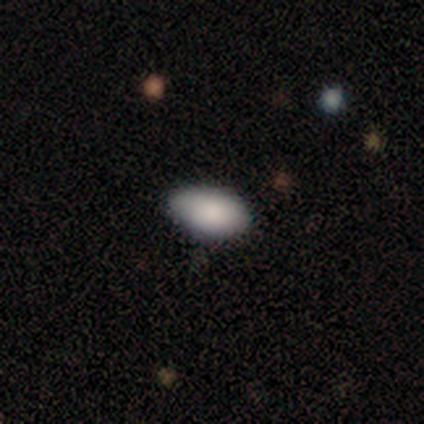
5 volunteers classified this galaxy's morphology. star or artifact 60%, smooth 40%, featured or disk 0%.